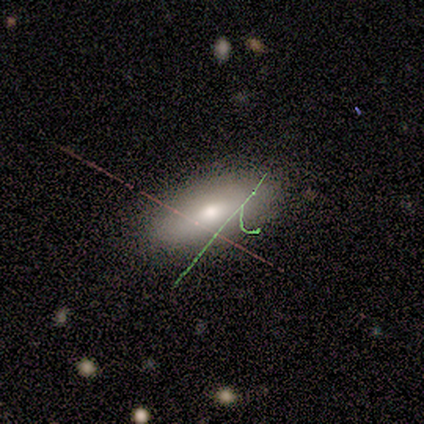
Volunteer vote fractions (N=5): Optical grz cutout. It shows a smooth galaxy with no disk features (80%) that is in between round and cigar-shaped (75%). Merging: none (100%).